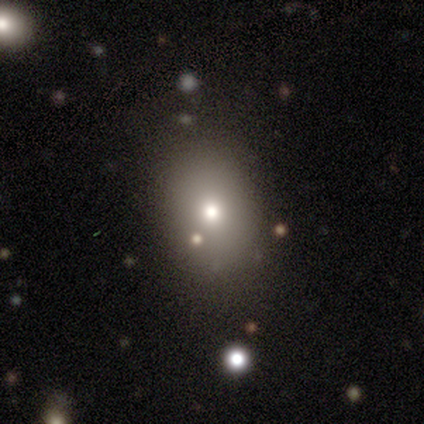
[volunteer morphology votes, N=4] type=smooth (100%); roundness=round (50%, tied with in between); merging=none (100%).